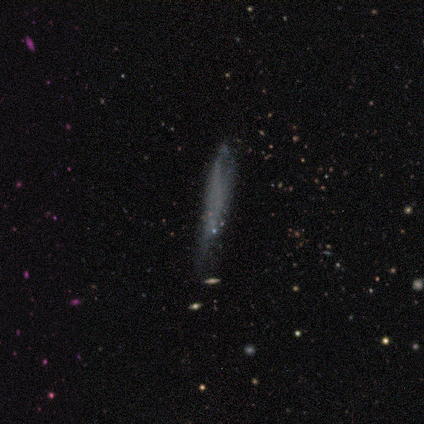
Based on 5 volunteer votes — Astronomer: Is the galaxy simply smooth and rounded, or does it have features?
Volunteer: smooth — 40%, tied with star or artifact at 40%.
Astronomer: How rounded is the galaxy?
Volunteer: cigar-shaped — 100%.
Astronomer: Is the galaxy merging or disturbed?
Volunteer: none — 100%.